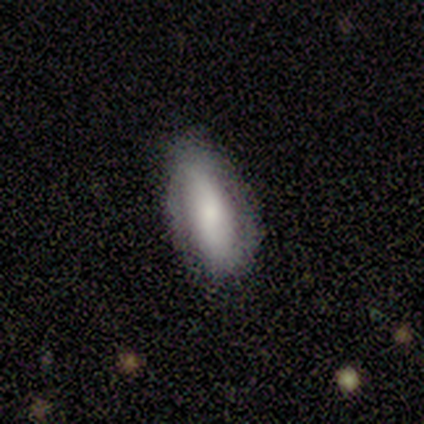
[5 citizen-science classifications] Overall: smooth (60%; featured or disk 40%). How rounded: in between (67%; cigar-shaped 33%). Merging: none (100%).